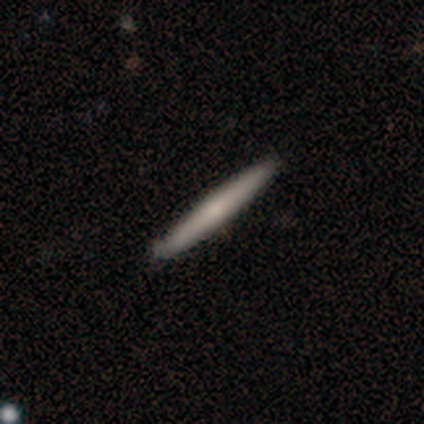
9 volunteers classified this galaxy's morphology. This is possibly a smooth galaxy (56%). How rounded: clearly cigar-shaped (100%). Merging: clearly none (100%).